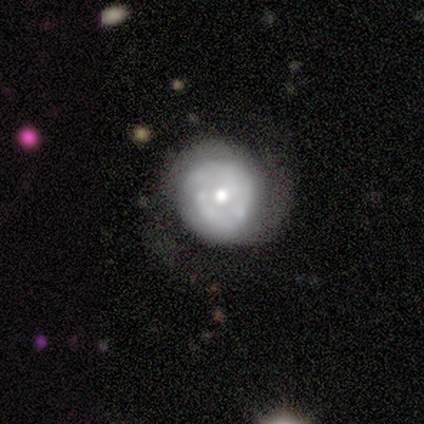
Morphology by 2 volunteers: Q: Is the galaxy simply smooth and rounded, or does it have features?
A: featured or disk — 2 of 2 (100%).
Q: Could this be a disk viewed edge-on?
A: no — 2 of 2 (100%).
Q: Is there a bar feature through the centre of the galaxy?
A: no — 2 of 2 (100%).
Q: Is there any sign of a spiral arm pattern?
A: yes — 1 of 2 (50%, tied with no).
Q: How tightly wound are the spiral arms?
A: loose — 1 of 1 (100%).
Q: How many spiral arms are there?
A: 2 — 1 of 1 (100%).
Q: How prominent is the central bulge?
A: moderate — 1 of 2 (50%, tied with small).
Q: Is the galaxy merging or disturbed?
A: none — 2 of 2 (100%).